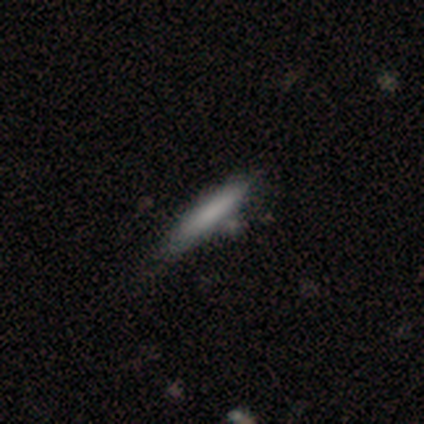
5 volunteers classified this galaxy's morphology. This is clearly a smooth galaxy (80%). How rounded: likely cigar-shaped (75%). Merging: clearly none (80%).